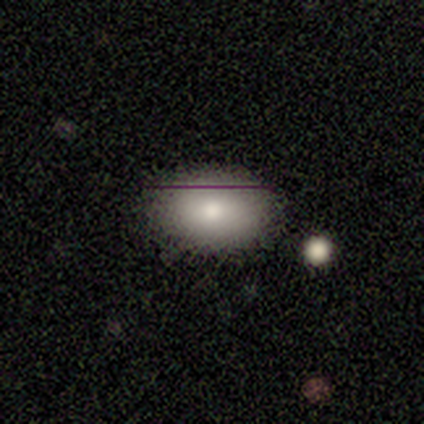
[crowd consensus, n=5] Overall: smooth (80%). How rounded: round (50%, tied with in between). Merging: none (100%).